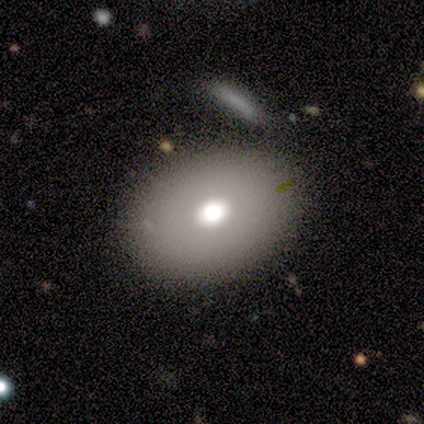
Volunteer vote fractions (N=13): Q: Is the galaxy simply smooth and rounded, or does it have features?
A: smooth — 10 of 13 (77%).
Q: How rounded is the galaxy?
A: in between — 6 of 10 (60%).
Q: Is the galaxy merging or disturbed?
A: none — 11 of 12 (92%).